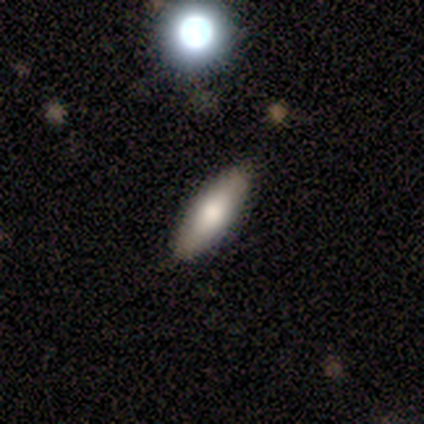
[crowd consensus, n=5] Overall: featured or disk (60%; smooth 40%). Edge-on disk: yes (67%; no 33%). Edge-on bulge: boxy (50%, tied with rounded). Merging: none (100%).